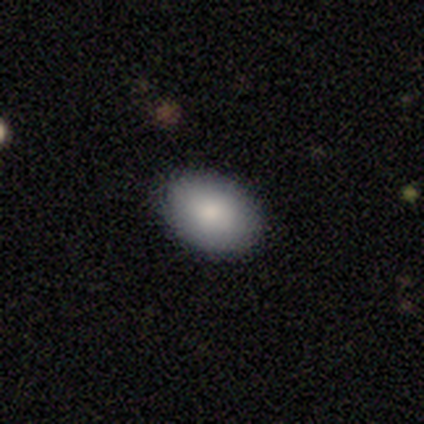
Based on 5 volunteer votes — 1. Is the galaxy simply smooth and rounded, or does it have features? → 100% smooth, 0% featured or disk, 0% star or artifact.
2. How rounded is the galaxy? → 100% in between, 0% round, 0% cigar-shaped.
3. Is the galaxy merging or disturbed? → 80% none, 20% minor disturbance, 0% major disturbance, 0% merger.